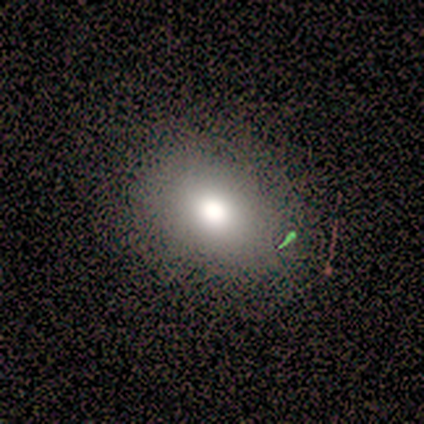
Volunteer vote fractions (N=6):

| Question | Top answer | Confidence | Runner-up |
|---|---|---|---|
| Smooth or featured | smooth | 83% | featured or disk (17%) |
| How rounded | round | 80% | in between (20%) |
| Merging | minor disturbance | 67% | none (33%) |